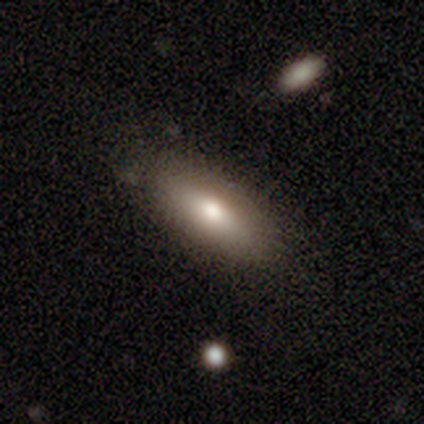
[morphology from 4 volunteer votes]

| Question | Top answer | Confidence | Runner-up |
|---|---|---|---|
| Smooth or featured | smooth | 75% | star or artifact (25%) |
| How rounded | in between | 100% | — |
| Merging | none | 100% | — |